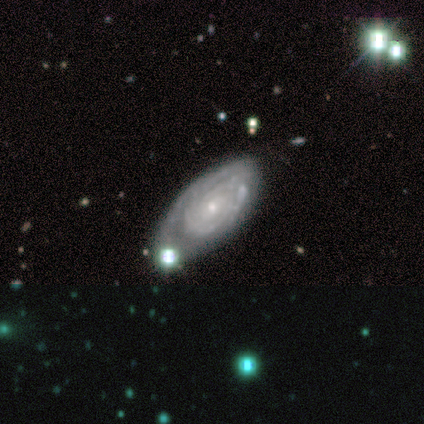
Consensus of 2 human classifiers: Smooth or featured? 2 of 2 (100%) said featured or disk. Edge-on disk? 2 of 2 (100%) said no. Bar? 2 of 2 (100%) said no. Spiral arms? 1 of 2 (50%, tied with no) said yes. Spiral winding? 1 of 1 (100%) said tight. Spiral arm count? 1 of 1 (100%) said can't tell. Bulge size? 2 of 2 (100%) said small. Merging? 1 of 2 (50%, tied with major disturbance) said minor disturbance.